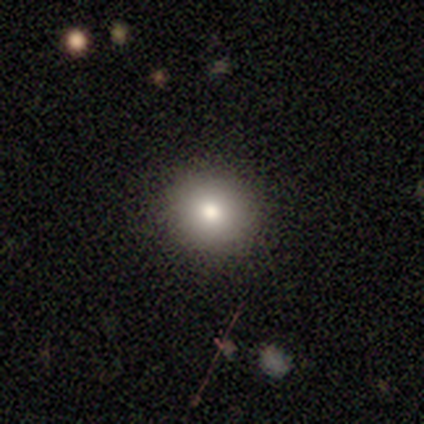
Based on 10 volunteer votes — Smooth or featured? smooth (80%)
How rounded? round (100%)
Merging? none (100%)